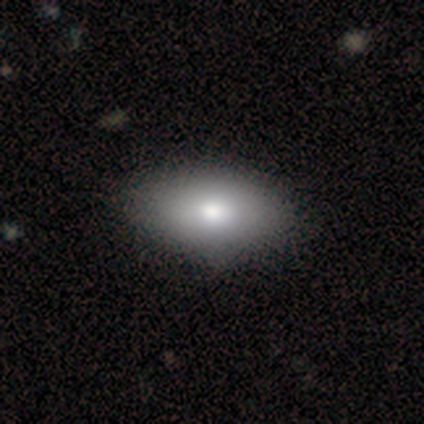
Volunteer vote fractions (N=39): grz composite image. It shows a smooth galaxy with no disk features (77%) that is in between round and cigar-shaped (97%). Merging: none (65%).